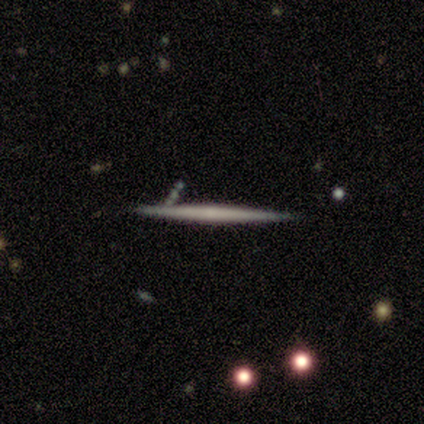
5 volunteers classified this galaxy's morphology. Smooth or featured? featured or disk (60%)
Edge-on disk? yes (100%)
Edge-on bulge? none (100%)
Merging? none (100%)